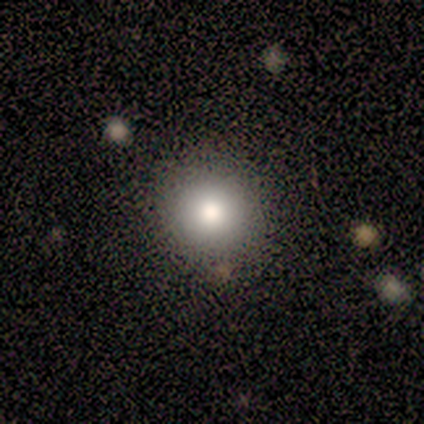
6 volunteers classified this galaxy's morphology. Volunteers were most divided on "merging": none: 67%, minor disturbance: 33%, major disturbance: 0%, merger: 0%. More confident: smooth or featured — smooth (100%); how rounded — round (100%).